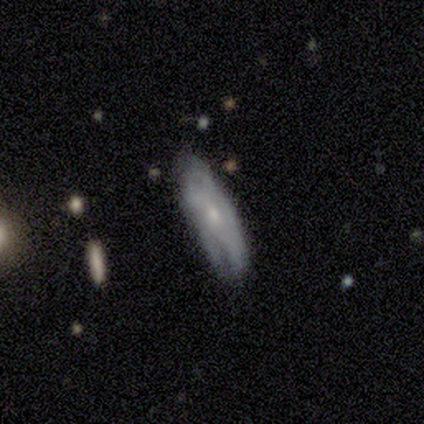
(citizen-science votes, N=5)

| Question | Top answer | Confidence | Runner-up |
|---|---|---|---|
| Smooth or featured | smooth | 60% | featured or disk (40%) |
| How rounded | cigar-shaped | 100% | — |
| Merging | none | 80% | minor disturbance (20%) |